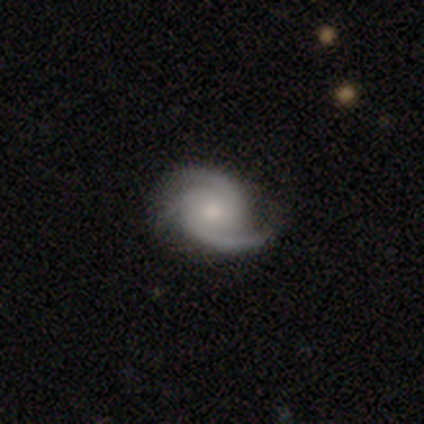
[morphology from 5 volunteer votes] Smooth or featured? featured or disk (100%)
Edge-on disk? no (100%)
Bar? no (100%)
Spiral arms? yes (100%)
Spiral winding? medium (80%)
Spiral arm count? 2 (100%)
Bulge size? large (40%, tied with moderate)
Merging? none (60%)